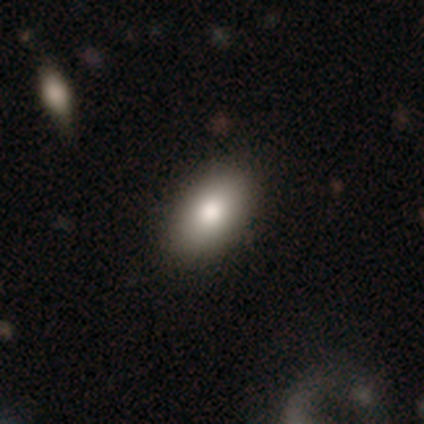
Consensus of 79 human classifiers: Smooth or featured?
  - smooth: 87% *
  - featured or disk: 9%
  - star or artifact: 4%
How rounded?
  - in between: 94% *
  - round: 4%
  - cigar-shaped: 1%
Merging?
  - none: 46% *
  - minor disturbance: 4%
  - merger: 3%
  - major disturbance: 0%